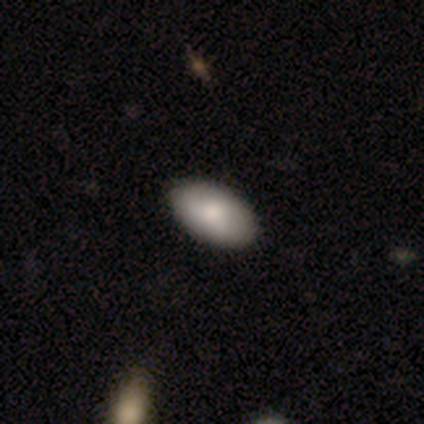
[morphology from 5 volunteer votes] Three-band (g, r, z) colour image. It shows a smooth galaxy with no disk features (80%) that is in between round and cigar-shaped (100%). Merging: none (100%).